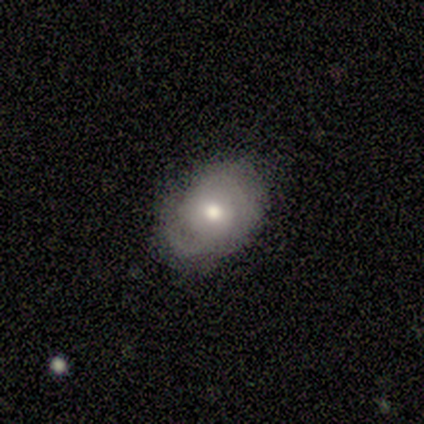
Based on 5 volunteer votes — This appears to be a smooth galaxy with no disk features (60%) that is in between round and cigar-shaped (100%). Merging: minor disturbance (60%).